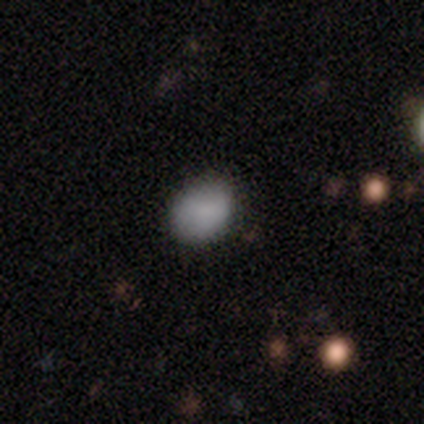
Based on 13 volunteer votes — Smooth or featured: smooth — 77% (star or artifact — 15%)
How rounded: in between — 80% (round — 20%)
Merging: none — 73% (minor disturbance — 27%)